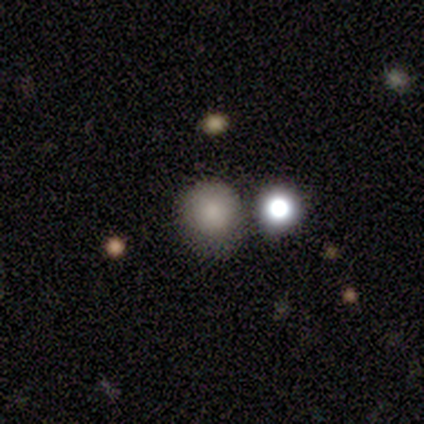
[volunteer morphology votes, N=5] type=smooth (100%); roundness=round (100%); merging=none (80%).